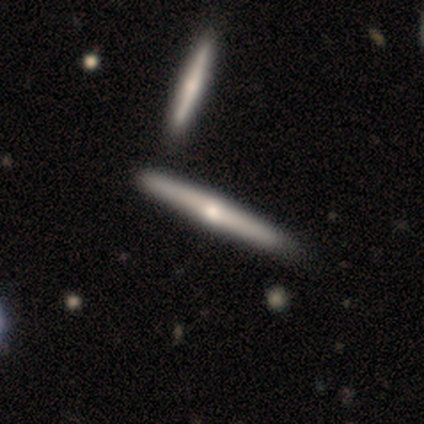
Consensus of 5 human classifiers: Smooth or featured?
  - featured or disk: 60% *
  - smooth: 20%
  - star or artifact: 20%
Edge-on disk?
  - yes: 100% *
  - no: 0%
Edge-on bulge?
  - rounded: 100% *
  - boxy: 0%
  - none: 0%
Merging?
  - none: 50% *
  - minor disturbance: 25%
  - merger: 25%
  - major disturbance: 0%